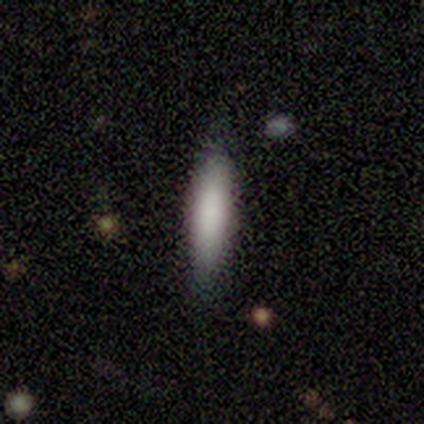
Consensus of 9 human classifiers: This appears to be a smooth galaxy with no disk features (67%) that is cigar-shaped (83%). Merging: none (89%).